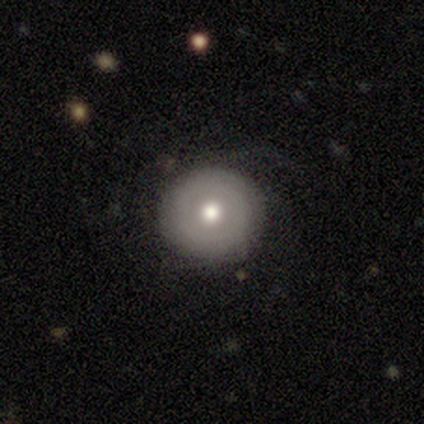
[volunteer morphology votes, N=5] This appears to be a smooth galaxy with no disk features (60%) that is round (100%). Merging: none (100%).